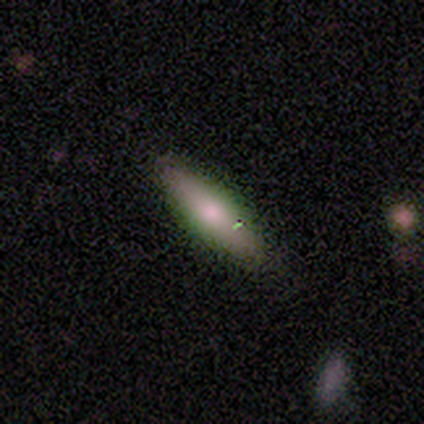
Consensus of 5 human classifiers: Volunteers were most divided on "how rounded": in between: 75%, cigar-shaped: 25%, round: 0%. More confident: merging — none (100%); smooth or featured — smooth (80%).